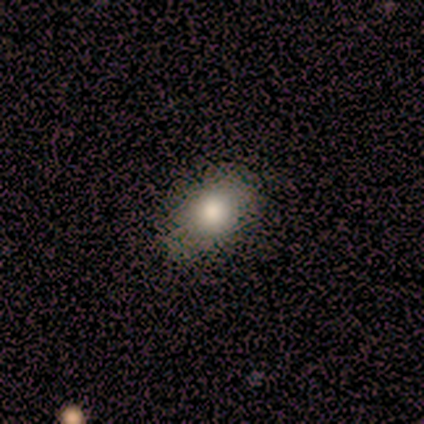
Smooth or featured?
  - smooth: 100% *
  - featured or disk: 0%
  - star or artifact: 0%
How rounded?
  - in between: 67% *
  - round: 33%
  - cigar-shaped: 0%
Merging?
  - none: 100% *
  - minor disturbance: 0%
  - major disturbance: 0%
  - merger: 0%